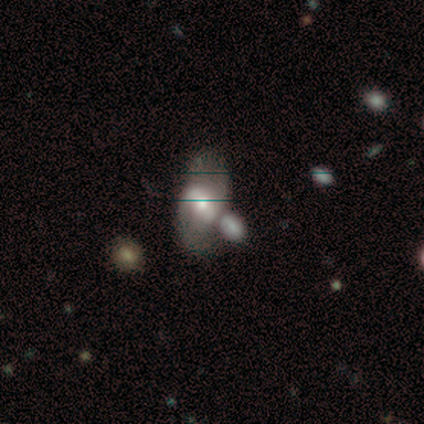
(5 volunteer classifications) Smooth or featured? featured or disk (80%)
Edge-on disk? no (100%)
Bar? strong (50%, tied with weak)
Spiral arms? yes (75%)
Spiral winding? medium (67%)
Spiral arm count? 2 (100%)
Bulge size? moderate (75%)
Merging? none (40%, tied with merger)